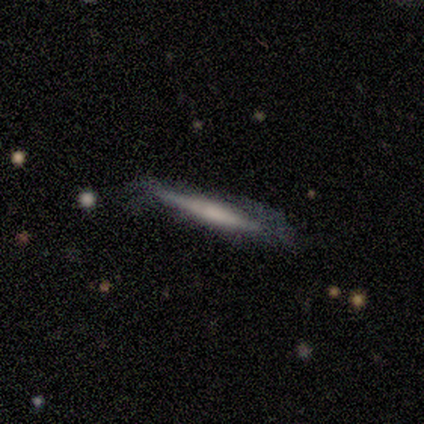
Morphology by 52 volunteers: Volunteers were most divided on "smooth or featured": featured or disk: 50%, smooth: 48%, star or artifact: 2%. More confident: edge-on disk — yes (92%); merging — none (63%); edge-on bulge — none (50%).